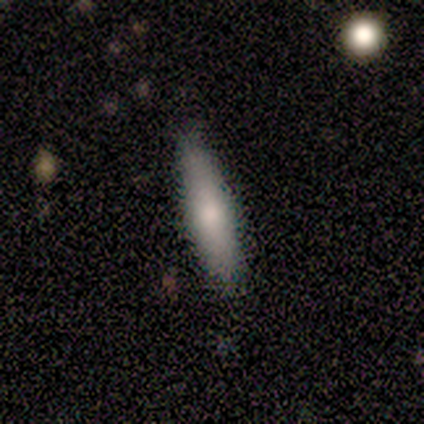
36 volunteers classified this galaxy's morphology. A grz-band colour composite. It shows a smooth galaxy with no disk features (86%) that is cigar-shaped (74%). Merging: none (97%).